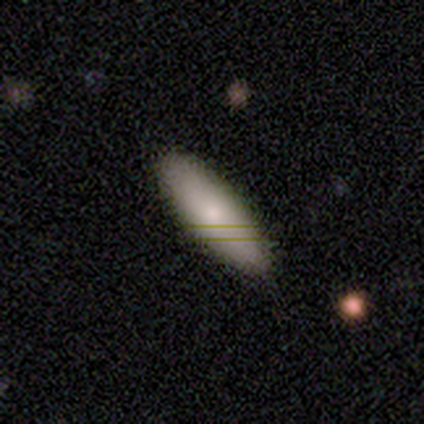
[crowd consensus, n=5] smooth-or-featured: smooth: 100% | featured or disk: 0% | star or artifact: 0%
  how-rounded: in between: 60% | round: 20% | cigar-shaped: 20%
  merging: none: 60% | minor disturbance: 20% | major disturbance: 20% | merger: 0%